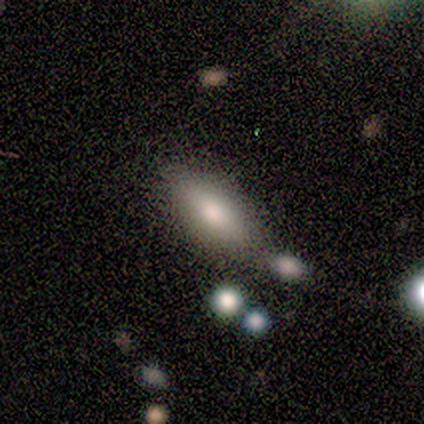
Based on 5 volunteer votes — This is clearly a smooth galaxy (100%). How rounded: clearly in between (80%). Merging: clearly none (80%).